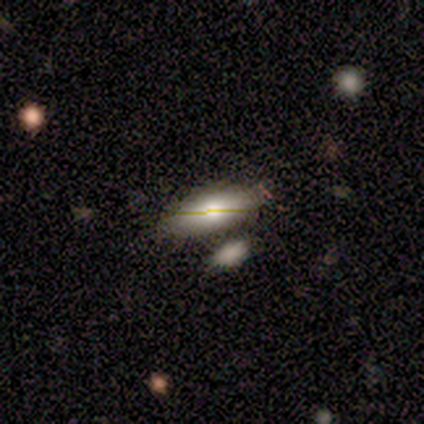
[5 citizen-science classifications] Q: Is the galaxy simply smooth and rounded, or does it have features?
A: smooth — 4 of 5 (80%).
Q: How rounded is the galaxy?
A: in between — 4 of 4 (100%).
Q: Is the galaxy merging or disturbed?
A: none — 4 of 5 (80%).